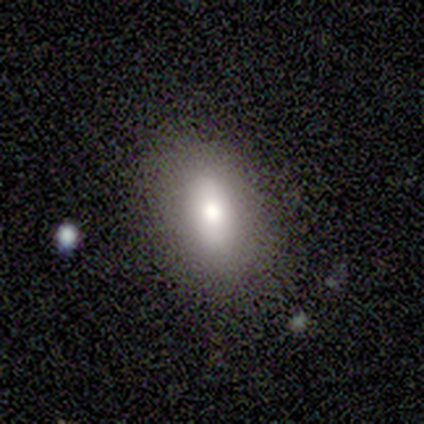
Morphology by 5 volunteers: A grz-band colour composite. It shows a smooth galaxy with no disk features (60%) that is in between round and cigar-shaped (100%). Merging: none (80%).